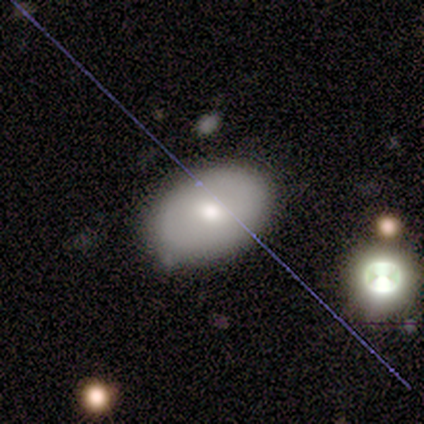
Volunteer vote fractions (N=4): This appears to be a smooth galaxy with no disk features (100%) that is in between round and cigar-shaped (100%). Merging: none (100%).